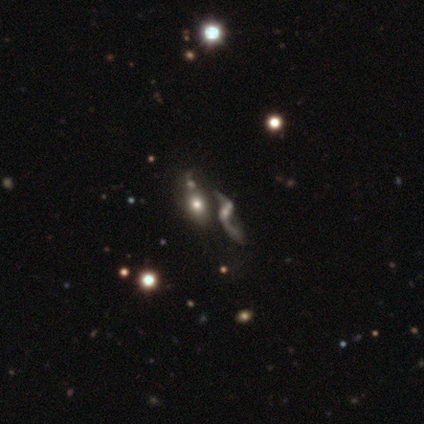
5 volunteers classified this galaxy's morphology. A featured or disk galaxy (80%) with a weak bar (75%), 2 (100%) loose (100%) spiral arms (50%, tied with no) and a small central bulge (50%, tied with none). Merging: merger (60%).